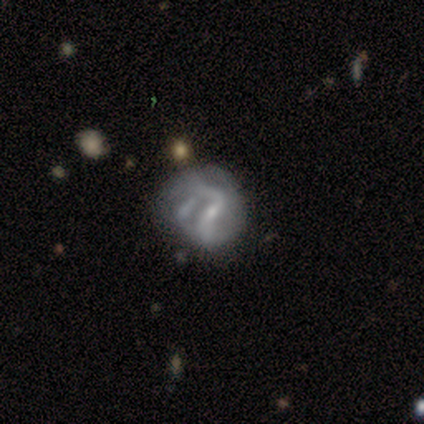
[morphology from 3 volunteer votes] Smooth or featured: featured or disk — 67% (smooth — 33%)
Edge-on disk: no — 100%
Bar: strong — 50% (tied with weak — 50%)
Spiral arms: yes — 100%
Spiral winding: medium — 50% (tied with loose — 50%)
Spiral arm count: 2 — 100%
Bulge size: small — 100%
Merging: major disturbance — 67% (none — 33%)